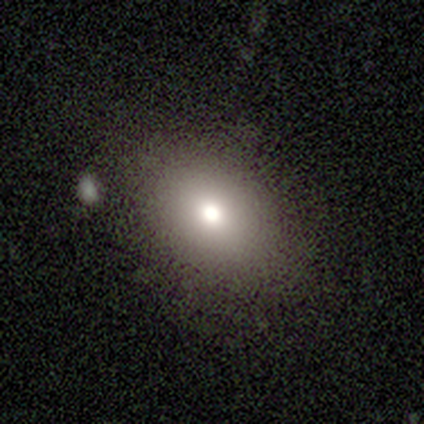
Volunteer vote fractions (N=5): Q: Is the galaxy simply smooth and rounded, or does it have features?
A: smooth — 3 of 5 (60%).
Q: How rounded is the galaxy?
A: in between — 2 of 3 (67%).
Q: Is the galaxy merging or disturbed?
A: none — 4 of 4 (100%).